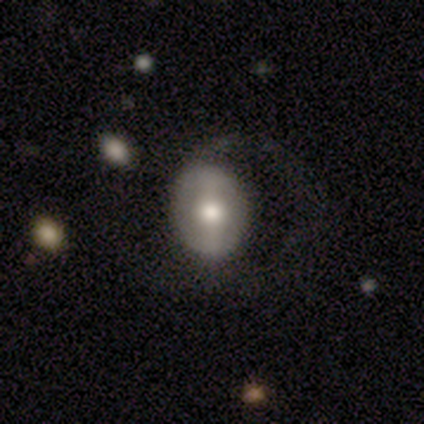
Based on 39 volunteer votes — This is possibly a featured or disk galaxy (56%). It is clearly not viewed edge-on (100%). Bar: possibly strong (50%). Spiral arm pattern: possibly no (59%). Central bulge: possibly moderate (59%). Merging: marginally none (41%, tied with major disturbance).